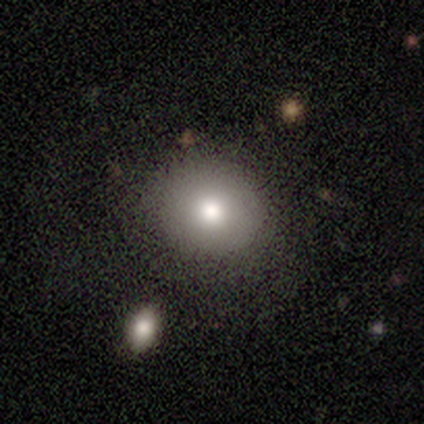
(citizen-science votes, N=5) Morphology: type=smooth (100%); roundness=round (60%); merging=none (80%).